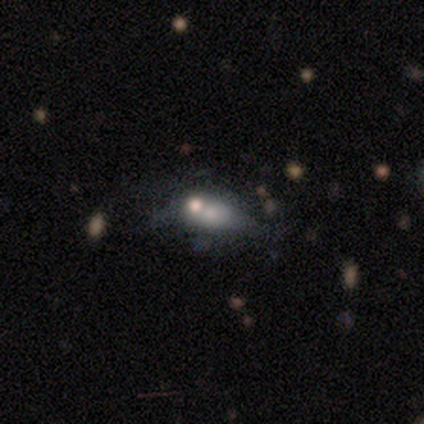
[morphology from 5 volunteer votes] type=star or artifact (60%).